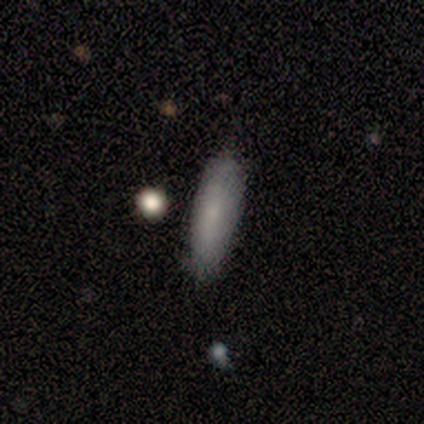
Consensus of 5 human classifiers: This is clearly a smooth galaxy (80%). How rounded: possibly in between (50%, tied with cigar-shaped). Merging: marginally none (40%).